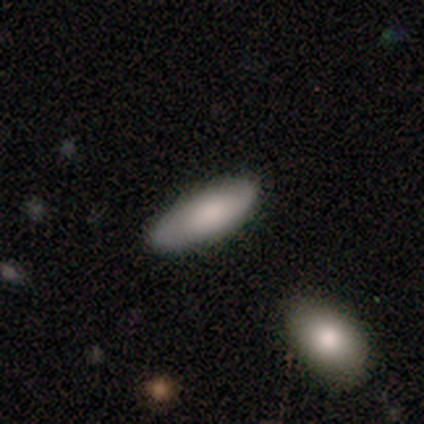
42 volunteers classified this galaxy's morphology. Smooth or featured: smooth — 79% (featured or disk — 12%)
How rounded: in between — 79% (cigar-shaped — 21%)
Merging: none — 82% (minor disturbance — 13%)